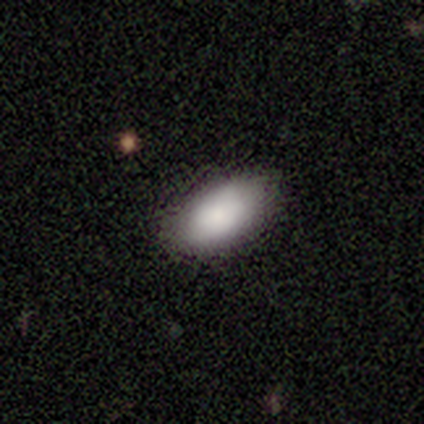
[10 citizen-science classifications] smooth-or-featured: smooth: 70% | featured or disk: 30% | star or artifact: 0%
  how-rounded: in between: 100% | round: 0% | cigar-shaped: 0%
  merging: none: 90% | minor disturbance: 10% | major disturbance: 0% | merger: 0%